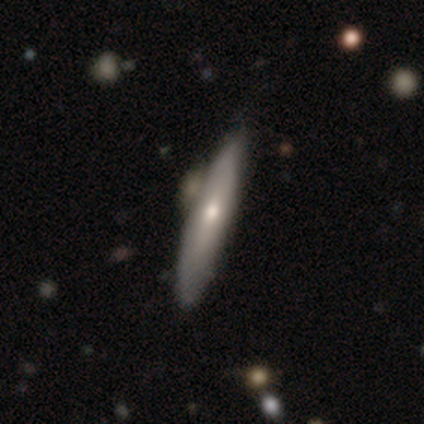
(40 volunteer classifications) smooth 50% (tied), featured or disk 50% (tied), star or artifact 0%. Down the decision tree: how rounded — cigar-shaped (90%); merging — none (50%).